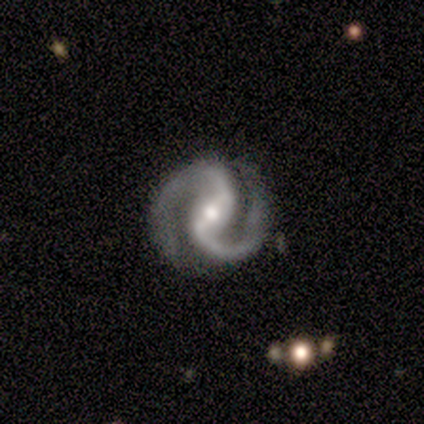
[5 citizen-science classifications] Q: Smooth or featured?
A: featured or disk (100%)
Q: Edge-on disk?
A: no (100%)
Q: Bar?
A: weak (100%)
Q: Spiral arms?
A: yes (100%)
Q: Spiral winding?
A: medium (80%); runner-up: tight (20%)
Q: Spiral arm count?
A: 2 (100%)
Q: Bulge size?
A: moderate (60%); runner-up: small (40%)
Q: Merging?
A: none (80%); runner-up: minor disturbance (20%)